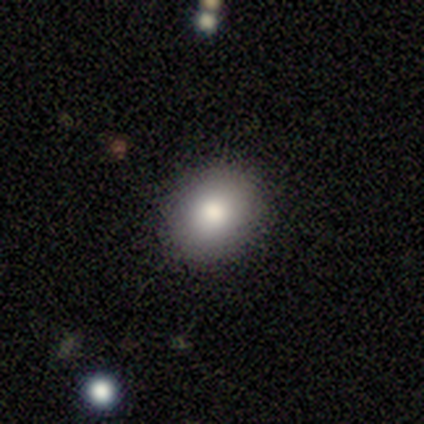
Smooth or featured?
  - smooth: 78% *
  - star or artifact: 16%
  - featured or disk: 5%
How rounded?
  - round: 55% *
  - in between: 45%
  - cigar-shaped: 0%
Merging?
  - none: 90% *
  - minor disturbance: 6%
  - merger: 3%
  - major disturbance: 0%